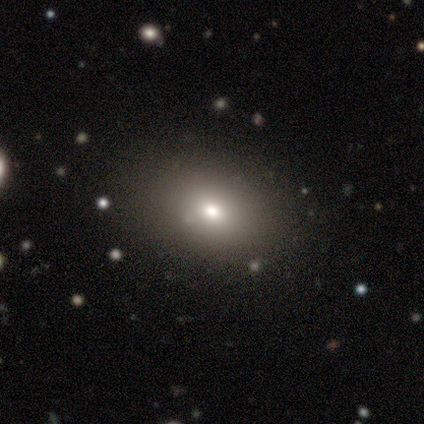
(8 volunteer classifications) smooth-or-featured: smooth: 75% | star or artifact: 25% | featured or disk: 0%
  how-rounded: in between: 83% | round: 17% | cigar-shaped: 0%
  merging: none: 100% | minor disturbance: 0% | major disturbance: 0% | merger: 0%